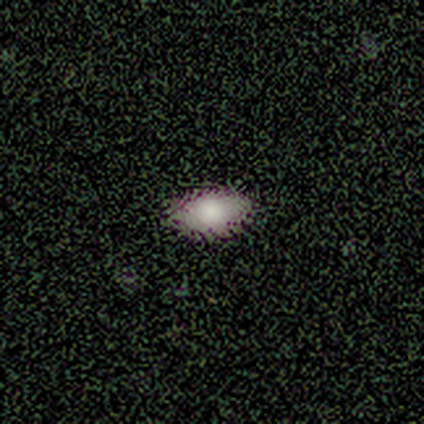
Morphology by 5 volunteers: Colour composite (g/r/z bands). It shows a smooth galaxy with no disk features (80%) that is in between round and cigar-shaped (75%). Merging: none (80%).